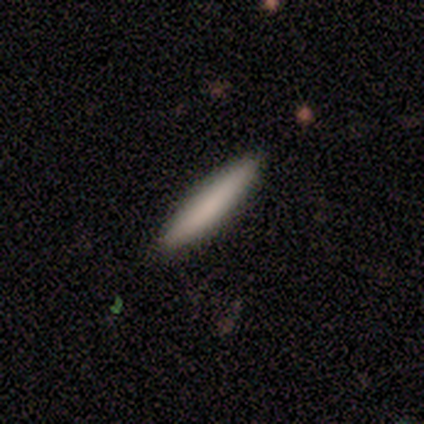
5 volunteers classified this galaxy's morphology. This is clearly a smooth galaxy (100%). How rounded: clearly cigar-shaped (100%). Merging: clearly none (100%).